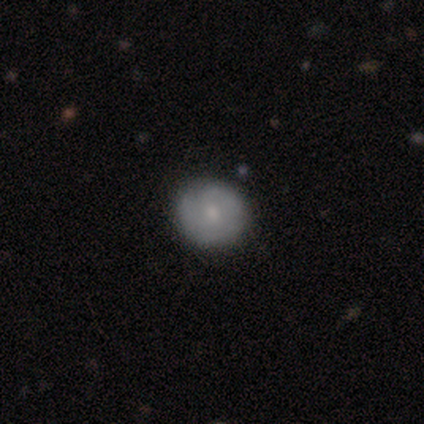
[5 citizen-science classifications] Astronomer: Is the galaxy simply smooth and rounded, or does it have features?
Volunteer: featured or disk — 60% (runner-up: smooth, 40%).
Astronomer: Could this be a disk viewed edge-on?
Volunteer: no — 100%.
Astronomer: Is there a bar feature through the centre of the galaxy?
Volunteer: no — 67%.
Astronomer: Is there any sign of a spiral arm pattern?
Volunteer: yes — 67%.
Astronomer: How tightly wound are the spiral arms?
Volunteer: medium — 50%, tied with loose at 50%.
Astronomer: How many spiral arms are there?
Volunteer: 1 — 100%.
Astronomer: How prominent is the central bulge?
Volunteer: small — 100%.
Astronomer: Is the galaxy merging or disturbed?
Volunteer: none — 80%.